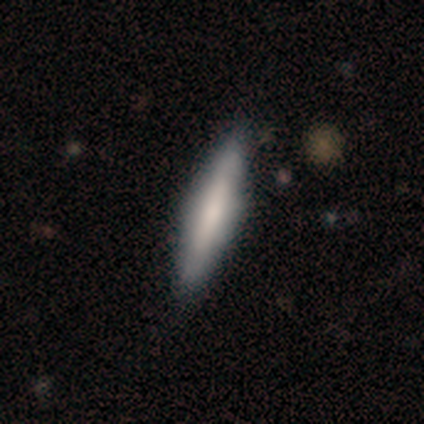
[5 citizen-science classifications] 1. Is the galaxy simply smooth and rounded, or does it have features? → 60% smooth, 40% featured or disk, 0% star or artifact.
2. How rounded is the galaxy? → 100% cigar-shaped, 0% round, 0% in between.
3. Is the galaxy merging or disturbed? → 80% none, 20% merger, 0% minor disturbance, 0% major disturbance.